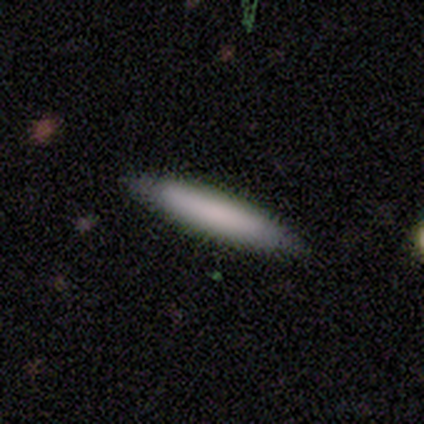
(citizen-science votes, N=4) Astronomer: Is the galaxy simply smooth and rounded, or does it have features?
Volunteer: smooth — 75%.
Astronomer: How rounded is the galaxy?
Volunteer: cigar-shaped — 67%.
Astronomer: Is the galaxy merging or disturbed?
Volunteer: none — 75%.